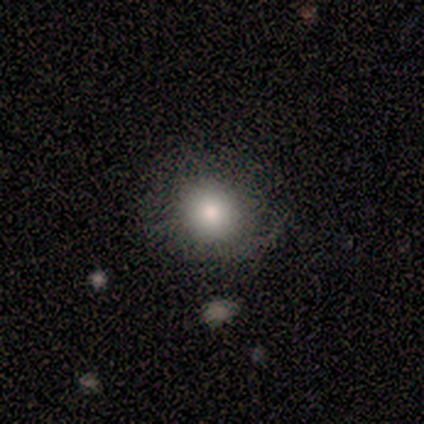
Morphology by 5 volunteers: A smooth galaxy with no disk features (100%) that is round (100%).

Vote fractions:
- Smooth or featured? smooth: 100% / featured or disk: 0% / star or artifact: 0%
- How rounded? round: 100% / in between: 0% / cigar-shaped: 0%
- Merging? none: 100% / minor disturbance: 0% / major disturbance: 0% / merger: 0%